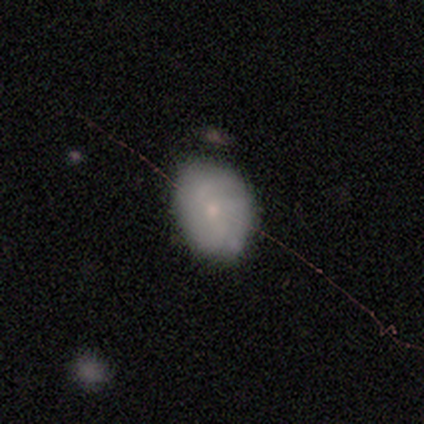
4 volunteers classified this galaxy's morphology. Smooth or featured?
  - smooth: 75% *
  - star or artifact: 25%
  - featured or disk: 0%
How rounded?
  - in between: 100% *
  - round: 0%
  - cigar-shaped: 0%
Merging?
  - minor disturbance: 67% *
  - none: 33%
  - major disturbance: 0%
  - merger: 0%